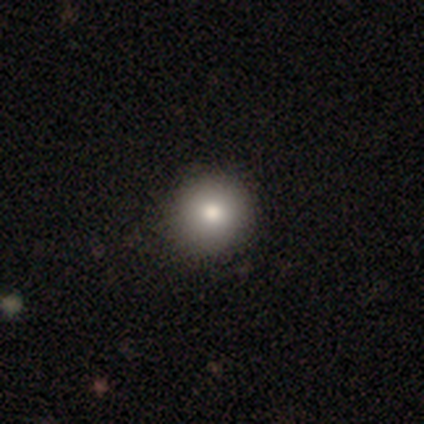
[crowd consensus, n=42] smooth_or_featured: smooth (p=0.79) [alt: star or artifact p=0.17]
how_rounded: round (p=0.97) [alt: in between p=0.03]
merging: none (p=0.97) [alt: minor disturbance p=0.03]